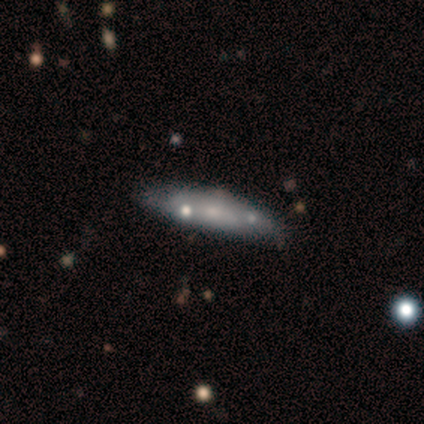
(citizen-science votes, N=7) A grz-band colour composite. It shows a featured or disk galaxy (86%) viewed edge-on (50%, tied with no) with a rounded central bulge (67%). Merging: none (57%).